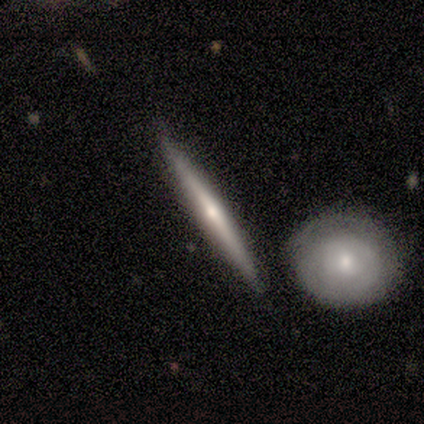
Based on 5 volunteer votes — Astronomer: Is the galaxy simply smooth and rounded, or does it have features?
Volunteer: featured or disk — 60% (runner-up: smooth, 40%).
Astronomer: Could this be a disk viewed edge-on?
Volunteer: yes — 100%.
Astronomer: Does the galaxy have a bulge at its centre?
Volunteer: rounded — 67%.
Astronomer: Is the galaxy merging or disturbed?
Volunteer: none — 100%.